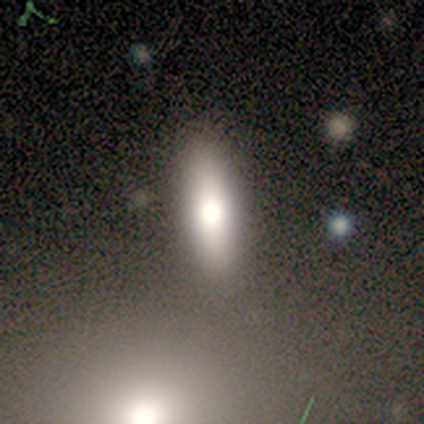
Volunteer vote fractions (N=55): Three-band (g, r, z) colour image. It shows a smooth galaxy with no disk features (78%) that is cigar-shaped (60%). Merging: none (71%).